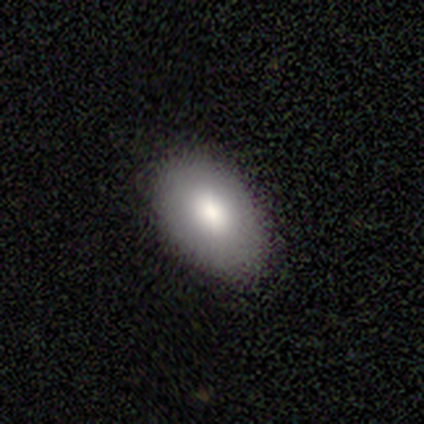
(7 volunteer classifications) A smooth galaxy with no disk features (86%) that is in between round and cigar-shaped (67%). Merging: none (86%).